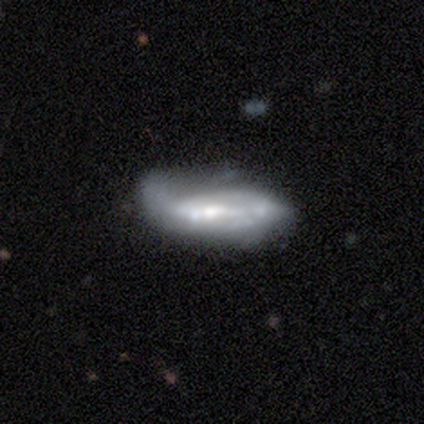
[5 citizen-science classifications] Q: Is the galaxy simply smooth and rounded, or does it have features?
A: featured or disk — 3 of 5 (60%).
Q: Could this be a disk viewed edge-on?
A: no — 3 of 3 (100%).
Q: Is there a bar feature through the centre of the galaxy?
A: strong — 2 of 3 (67%).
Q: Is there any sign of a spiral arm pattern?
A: yes — 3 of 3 (100%).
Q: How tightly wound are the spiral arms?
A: loose — 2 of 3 (67%).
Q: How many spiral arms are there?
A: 1 — 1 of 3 (33%, tied with 2 and can't tell).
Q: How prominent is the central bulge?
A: moderate — 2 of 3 (67%).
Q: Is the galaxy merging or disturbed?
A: minor disturbance — 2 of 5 (40%, tied with major disturbance).